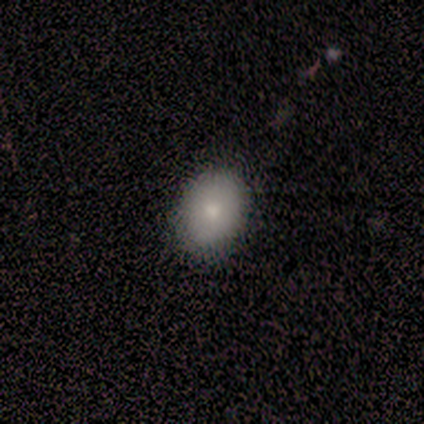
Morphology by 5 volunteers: This is likely a featured or disk galaxy (60%). It is clearly not viewed edge-on (100%). Bar: clearly no (100%). Spiral arm pattern: clearly no (100%). Central bulge: likely moderate (67%). Merging: clearly none (80%).